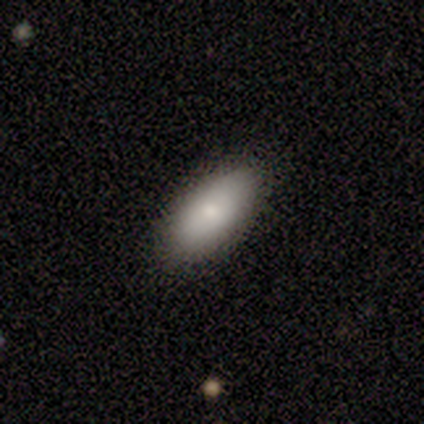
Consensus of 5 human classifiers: Overall: smooth (80%). How rounded: in between (75%). Merging: none (100%).